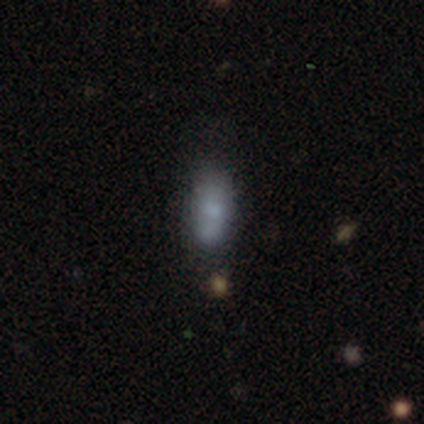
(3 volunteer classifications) Smooth or featured? smooth (67%)
How rounded? in between (100%)
Merging? none (100%)